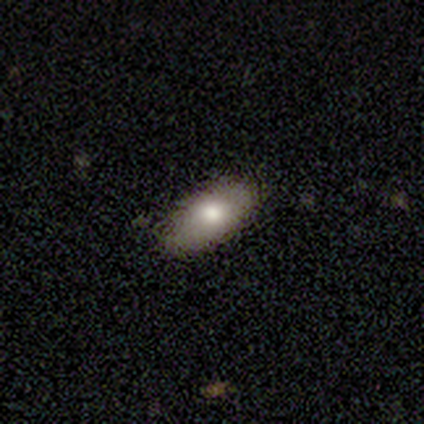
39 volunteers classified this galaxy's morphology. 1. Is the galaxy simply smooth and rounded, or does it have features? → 64% smooth, 28% featured or disk, 8% star or artifact.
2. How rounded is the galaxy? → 96% in between, 4% cigar-shaped, 0% round.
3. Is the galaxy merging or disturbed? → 86% none, 14% minor disturbance, 0% major disturbance, 0% merger.